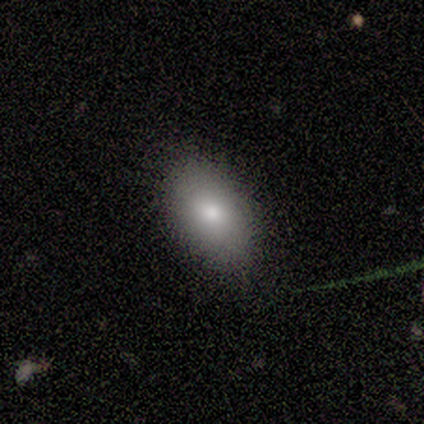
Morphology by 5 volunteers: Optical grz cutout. It shows a smooth galaxy with no disk features (60%) that is in between round and cigar-shaped (100%). Merging: none (100%).